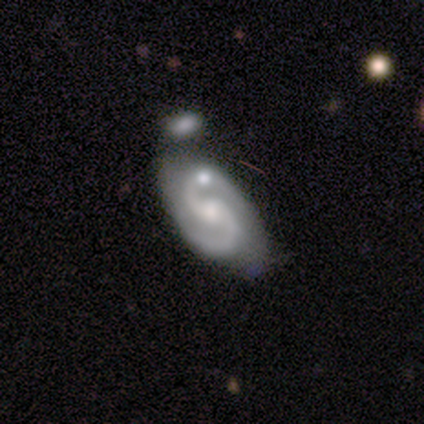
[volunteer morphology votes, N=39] type=featured or disk (92%); edge-on=no (92%); bar=no (64%); spiral arms=yes (94%); winding=medium (61%); arm count=2 (100%); bulge=moderate (55%); merging=none (32%).